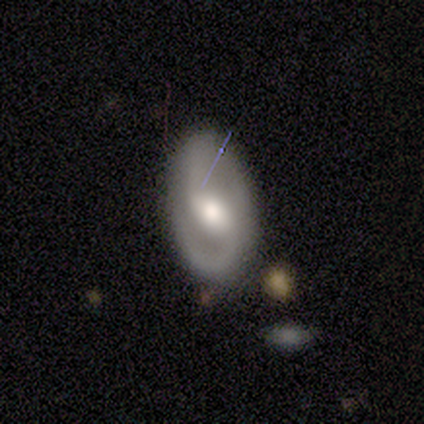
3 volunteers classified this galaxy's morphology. This appears to be a featured or disk galaxy (67%) with a weak bar (50%, tied with no), 2 (100%) tight (50%, tied with loose) spiral arms (100%) and a moderate central bulge (100%). Merging: none (67%).